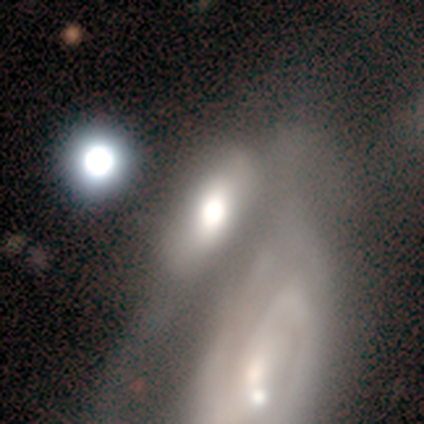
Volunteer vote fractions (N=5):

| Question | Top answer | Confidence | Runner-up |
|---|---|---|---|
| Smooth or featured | smooth | 60% | featured or disk (20%) |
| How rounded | in between | 67% | round (33%) |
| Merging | none | 50% | major disturbance (25%) |